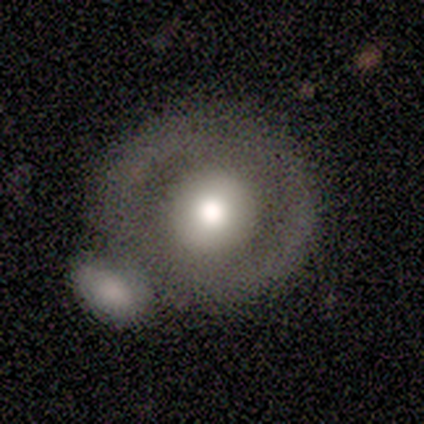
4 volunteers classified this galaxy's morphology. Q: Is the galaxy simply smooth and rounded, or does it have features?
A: smooth — 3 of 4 (75%).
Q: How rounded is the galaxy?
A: round — 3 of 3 (100%).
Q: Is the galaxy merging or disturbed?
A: merger — 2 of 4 (50%).